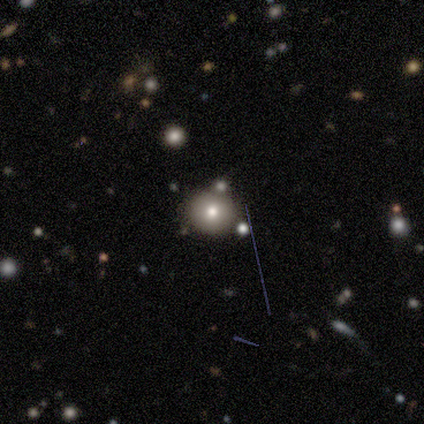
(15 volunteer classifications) Volunteers were most divided on "smooth or featured": smooth: 67%, star or artifact: 27%, featured or disk: 7%. More confident: how rounded — round (100%); merging — none (73%).